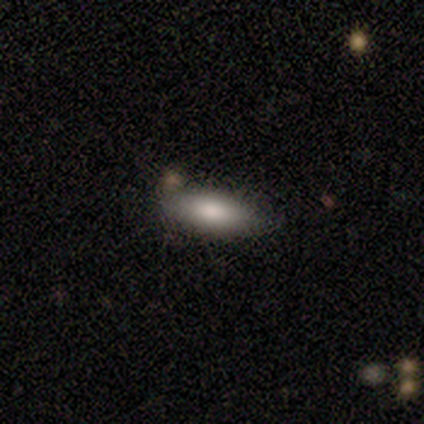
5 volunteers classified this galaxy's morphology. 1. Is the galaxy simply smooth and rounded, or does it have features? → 80% smooth, 20% featured or disk, 0% star or artifact.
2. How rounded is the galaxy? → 75% cigar-shaped, 25% in between, 0% round.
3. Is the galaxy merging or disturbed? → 80% none, 20% merger, 0% minor disturbance, 0% major disturbance.